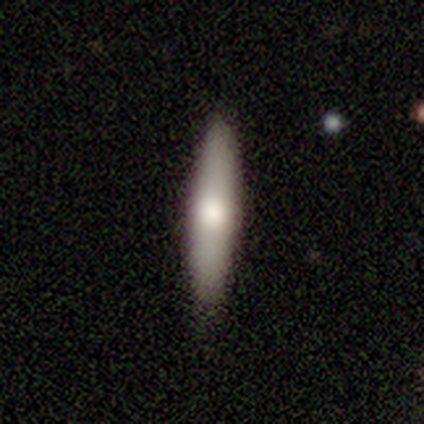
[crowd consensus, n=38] Smooth or featured? 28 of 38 (74%) said smooth. How rounded? 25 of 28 (89%) said cigar-shaped. Merging? 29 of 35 (83%) said none.